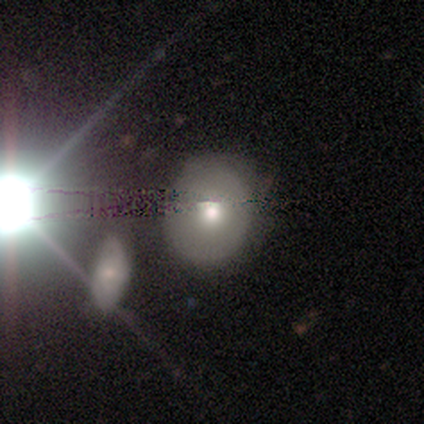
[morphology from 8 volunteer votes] Volunteers were most divided on "smooth or featured": smooth: 50%, featured or disk: 38%, star or artifact: 12%. More confident: how rounded — round (100%); merging — none (100%).